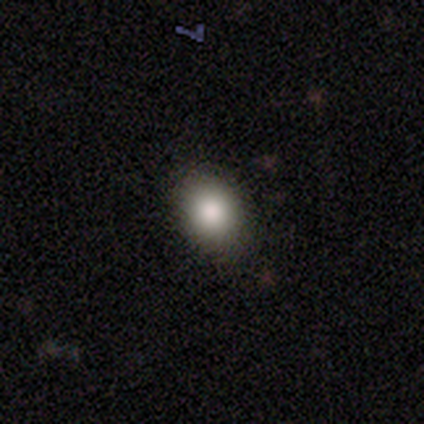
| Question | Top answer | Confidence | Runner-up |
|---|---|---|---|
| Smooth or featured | smooth | 100% | — |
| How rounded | in between | 60% | round (40%) |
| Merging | none | 80% | minor disturbance (20%) |